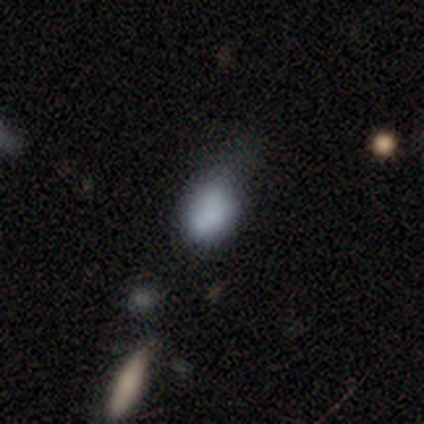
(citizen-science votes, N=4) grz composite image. It shows a smooth galaxy with no disk features (75%) that is in between round and cigar-shaped (100%). Merging: major disturbance (67%).